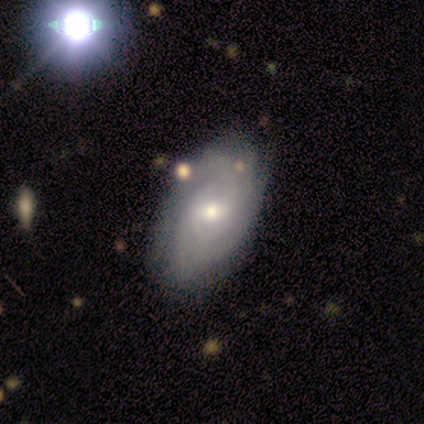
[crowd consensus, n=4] Smooth or featured: smooth — 50% (tied with featured or disk — 50%)
How rounded: in between — 100%
Merging: none — 75% (minor disturbance — 25%)